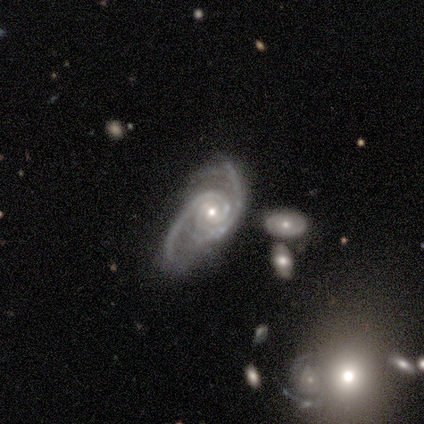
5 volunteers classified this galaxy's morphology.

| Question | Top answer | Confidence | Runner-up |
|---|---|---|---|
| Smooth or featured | featured or disk | 100% | — |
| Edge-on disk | no | 80% | yes (20%) |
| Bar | no | 100% | — |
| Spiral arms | yes | 100% | — |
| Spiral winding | loose | 50% | tight (25%) |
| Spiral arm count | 2 | 75% | 3 (25%) |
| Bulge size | moderate | 50% | tied: small (50%) |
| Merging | none | 60% | major disturbance (40%) |